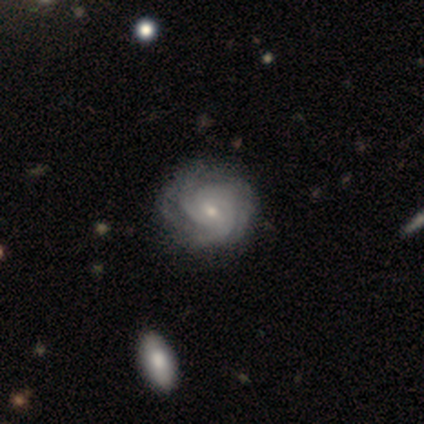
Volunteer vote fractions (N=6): Overall: featured or disk (83%). Edge-on disk: no (100%). Bar: weak (60%; no 40%). Spiral arms: yes (100%). Spiral arm count: 3 (60%; 2 20%). Spiral winding: tight (60%; medium 40%). Bulge size: small (60%; moderate 40%). Merging: none (83%).